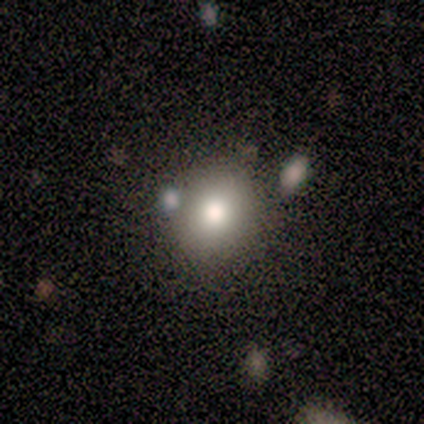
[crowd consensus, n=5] A smooth galaxy with no disk features (80%) that is round (50%, tied with in between).

Vote fractions:
- Smooth or featured? smooth: 80% / featured or disk: 20% / star or artifact: 0%
- How rounded? round: 50% (tied) / in between: 50% (tied) / cigar-shaped: 0%
- Merging? none: 100% / minor disturbance: 0% / major disturbance: 0% / merger: 0%